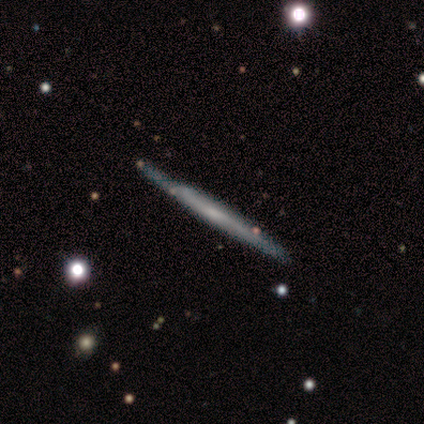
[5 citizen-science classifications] This appears to be a featured or disk galaxy (60%) viewed edge-on (100%) with no central bulge (67%). Merging: none (100%).